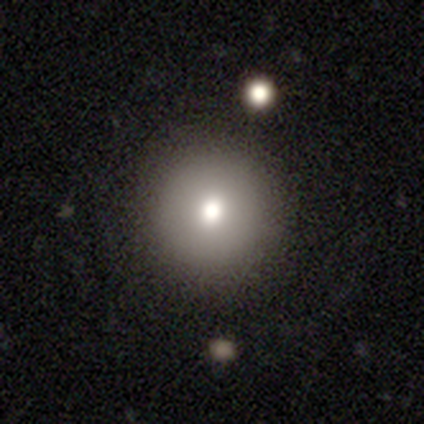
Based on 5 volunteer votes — Q: Smooth or featured?
A: smooth (80%); runner-up: featured or disk (20%)
Q: How rounded?
A: round (100%)
Q: Merging?
A: none (100%)